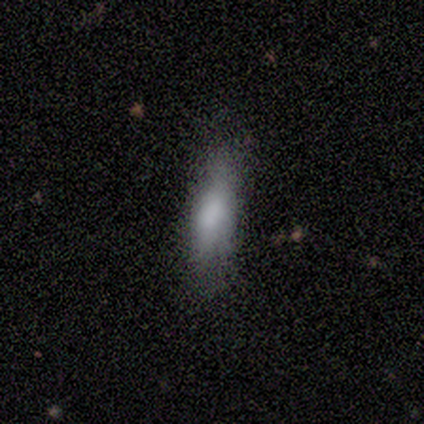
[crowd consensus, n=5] smooth 60%, featured or disk 40%, star or artifact 0%. Down the decision tree: how rounded — in between (67%); merging — minor disturbance (60%).